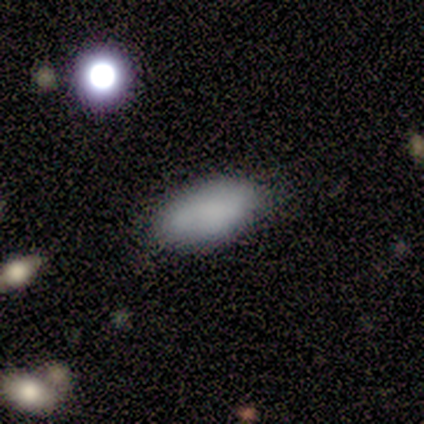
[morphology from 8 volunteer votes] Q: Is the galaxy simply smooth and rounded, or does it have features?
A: smooth — 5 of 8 (62%).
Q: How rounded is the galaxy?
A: in between — 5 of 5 (100%).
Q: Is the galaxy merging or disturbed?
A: none — 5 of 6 (83%).